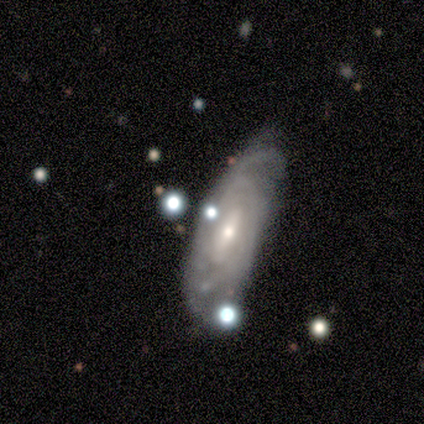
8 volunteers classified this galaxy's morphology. smooth-or-featured: featured or disk: 88% | smooth: 12% | star or artifact: 0%
  disk-edge-on: no: 100% | yes: 0%
    bar: weak: 43% | strong: 29% | no: 29%
    has-spiral-arms: yes: 100% | no: 0%
      spiral-winding: tight: 71% | medium: 14% | loose: 14%
      spiral-arm-count: can't tell: 86% | 2: 14% | 1: 0% | 3: 0% | 4: 0% | more than 4: 0%
    bulge-size: small: 71% | moderate: 29% | dominant: 0% | large: 0% | none: 0%
  merging: none: 75% | minor disturbance: 25% | major disturbance: 0% | merger: 0%